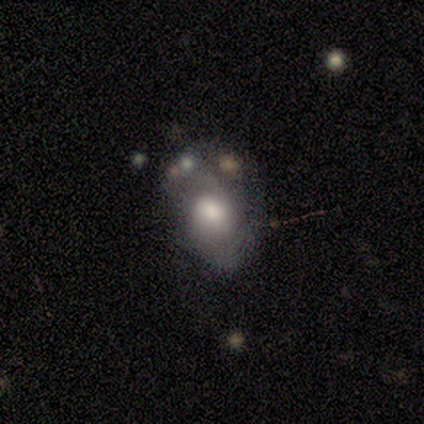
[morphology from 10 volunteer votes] Smooth or featured: smooth — 70% (featured or disk — 20%)
How rounded: in between — 86% (round — 14%)
Merging: none — 56% (minor disturbance — 22%)